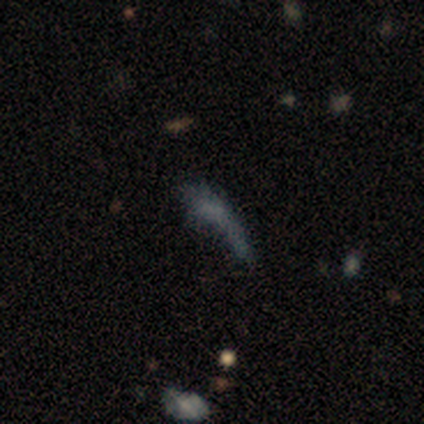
Smooth or featured? featured or disk (60%)
Edge-on disk? no (100%)
Bar? no (100%)
Spiral arms? no (100%)
Bulge size? none (100%)
Merging? none (40%)